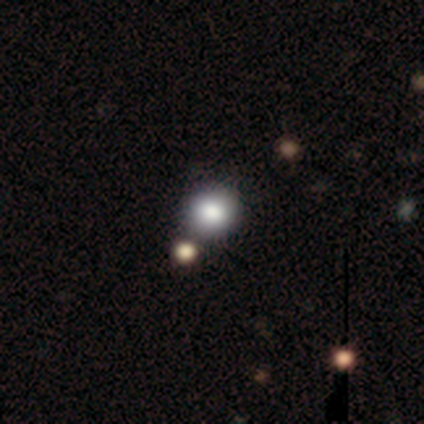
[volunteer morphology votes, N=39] Smooth or featured: smooth — 82% (star or artifact — 10%)
How rounded: round — 91% (in between — 9%)
Merging: none — 91% (minor disturbance — 3%)